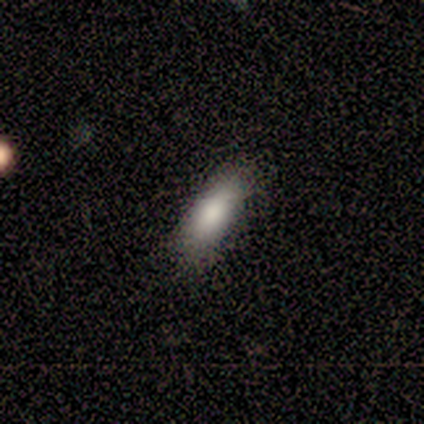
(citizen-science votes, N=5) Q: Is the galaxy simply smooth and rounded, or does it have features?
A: smooth — 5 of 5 (100%).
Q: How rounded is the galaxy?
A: cigar-shaped — 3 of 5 (60%).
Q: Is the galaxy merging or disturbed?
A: none — 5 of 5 (100%).